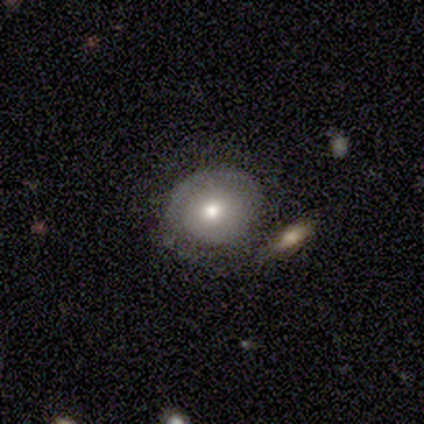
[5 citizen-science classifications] Q: Smooth or featured?
A: smooth (60%); runner-up: featured or disk (40%)
Q: How rounded?
A: round (100%)
Q: Merging?
A: none (40%); tied with: minor disturbance (40%)